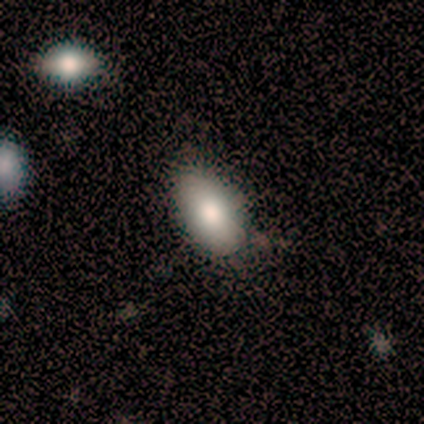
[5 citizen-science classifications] smooth 80%, star or artifact 20%, featured or disk 0%. Down the decision tree: how rounded — in between (100%); merging — none (100%).